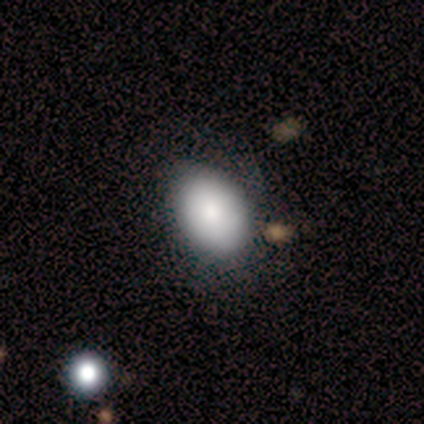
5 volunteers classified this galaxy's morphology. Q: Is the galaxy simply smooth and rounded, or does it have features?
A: smooth — 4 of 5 (80%).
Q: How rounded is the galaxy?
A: in between — 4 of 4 (100%).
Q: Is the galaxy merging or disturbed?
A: none — 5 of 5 (100%).